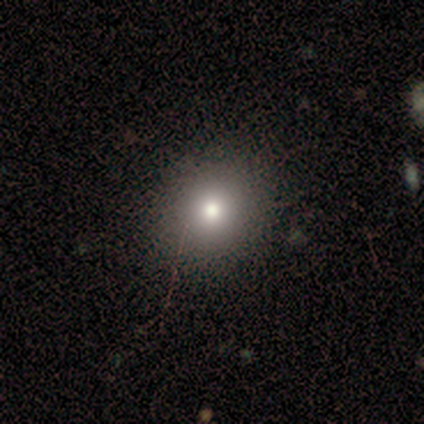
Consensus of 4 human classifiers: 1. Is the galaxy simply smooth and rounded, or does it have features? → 75% smooth, 25% featured or disk, 0% star or artifact.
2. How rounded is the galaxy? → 100% round, 0% in between, 0% cigar-shaped.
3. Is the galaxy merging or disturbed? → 100% none, 0% minor disturbance, 0% major disturbance, 0% merger.